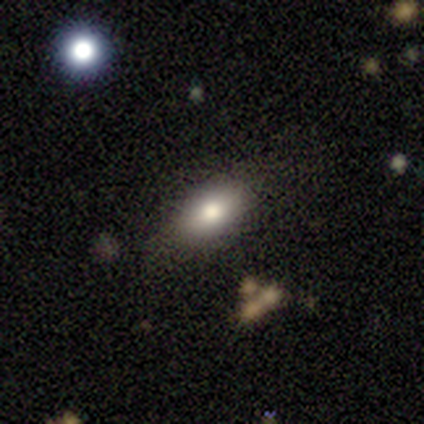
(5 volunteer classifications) Smooth or featured? 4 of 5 (80%) said smooth. How rounded? 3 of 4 (75%) said in between. Merging? 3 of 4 (75%) said none.